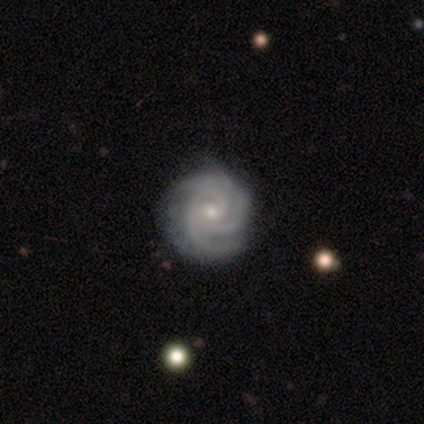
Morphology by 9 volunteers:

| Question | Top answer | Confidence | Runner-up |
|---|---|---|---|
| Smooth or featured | featured or disk | 100% | — |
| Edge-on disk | no | 100% | — |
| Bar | no | 67% | weak (33%) |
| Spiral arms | yes | 100% | — |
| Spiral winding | tight | 78% | medium (22%) |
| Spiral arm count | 3 | 56% | 2 (33%) |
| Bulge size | small | 67% | moderate (33%) |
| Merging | none | 100% | — |